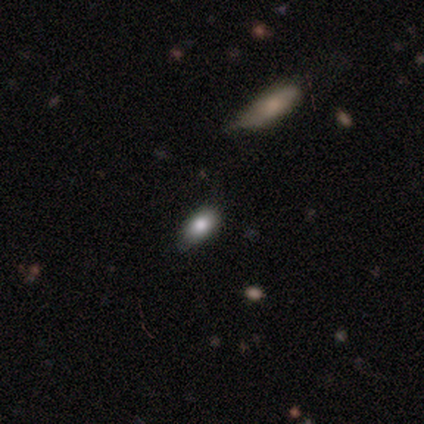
This appears to be a smooth galaxy with no disk features (50%, tied with featured or disk) that is in between round and cigar-shaped (100%). Merging: none (75%).